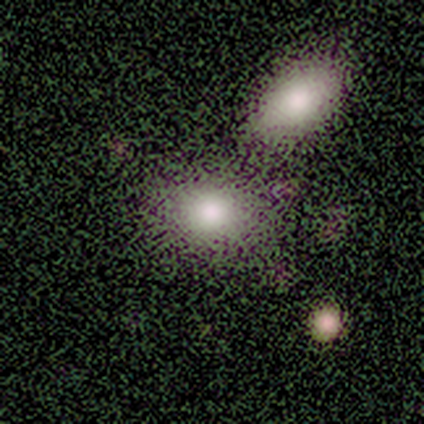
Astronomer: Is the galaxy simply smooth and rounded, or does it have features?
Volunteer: smooth — 82%.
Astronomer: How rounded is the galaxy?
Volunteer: in between — 66%.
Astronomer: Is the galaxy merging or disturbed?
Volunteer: none — 62%.